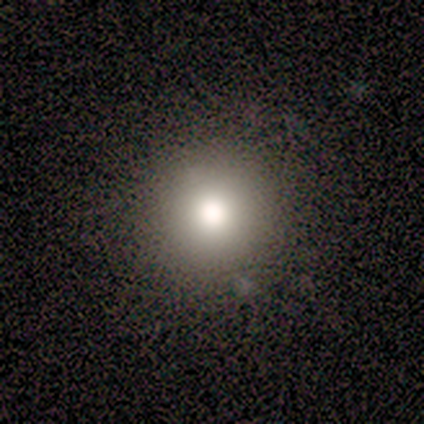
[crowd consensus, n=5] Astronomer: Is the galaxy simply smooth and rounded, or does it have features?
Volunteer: smooth — 80%.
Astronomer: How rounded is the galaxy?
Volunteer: round — 100%.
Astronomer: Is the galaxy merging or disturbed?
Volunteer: none — 75%.